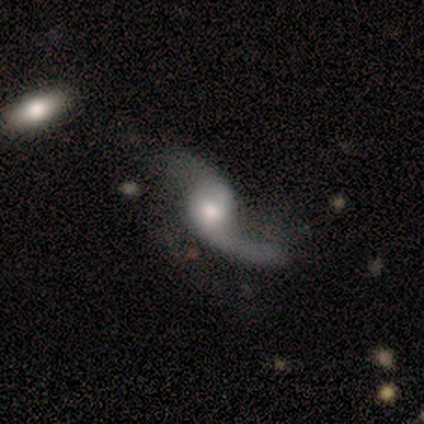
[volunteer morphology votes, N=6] type=featured or disk (83%); edge-on=no (100%); bar=no (80%); spiral arms=yes (100%); winding=loose (100%); arm count=2 (80%); bulge=moderate (60%); merging=none (40%).